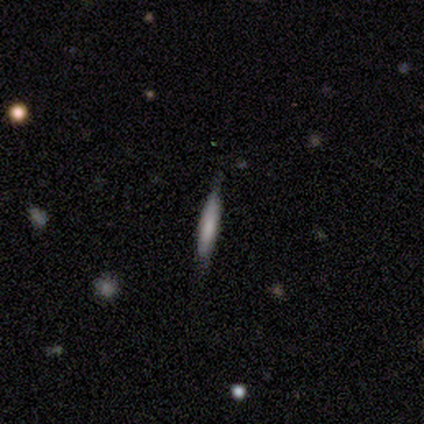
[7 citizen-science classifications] Smooth or featured? 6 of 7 (86%) said smooth. How rounded? 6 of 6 (100%) said cigar-shaped. Merging? 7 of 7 (100%) said none.